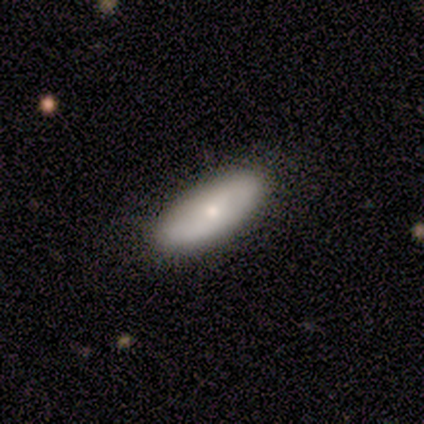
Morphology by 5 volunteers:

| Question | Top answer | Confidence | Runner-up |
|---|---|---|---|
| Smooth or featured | featured or disk | 40% | tied: star or artifact (40%) |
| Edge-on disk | no | 100% | — |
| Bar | weak | 50% | tied: no (50%) |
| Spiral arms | yes | 50% | tied: no (50%) |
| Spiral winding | medium | 100% | — |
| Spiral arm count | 2 | 100% | — |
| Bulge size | moderate | 50% | tied: small (50%) |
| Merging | none | 100% | — |